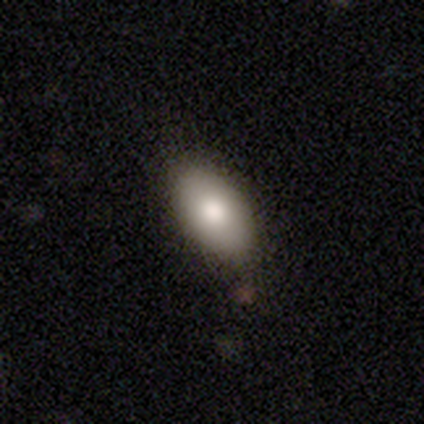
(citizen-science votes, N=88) Smooth or featured?
  - smooth: 72% *
  - featured or disk: 19%
  - star or artifact: 9%
How rounded?
  - in between: 97% *
  - round: 3%
  - cigar-shaped: 0%
Merging?
  - none: 79% *
  - minor disturbance: 19%
  - major disturbance: 2%
  - merger: 0%